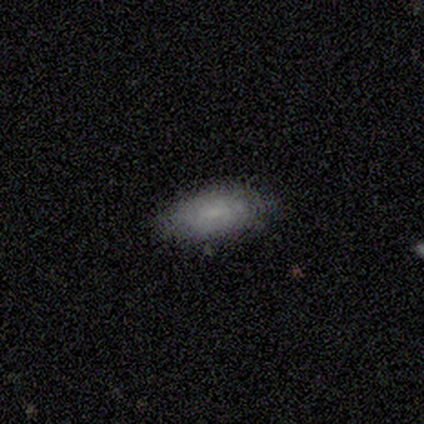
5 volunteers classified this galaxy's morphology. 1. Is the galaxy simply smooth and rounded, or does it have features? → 80% smooth, 20% star or artifact, 0% featured or disk.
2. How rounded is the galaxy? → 100% in between, 0% round, 0% cigar-shaped.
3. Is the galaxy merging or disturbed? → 75% none, 25% minor disturbance, 0% major disturbance, 0% merger.